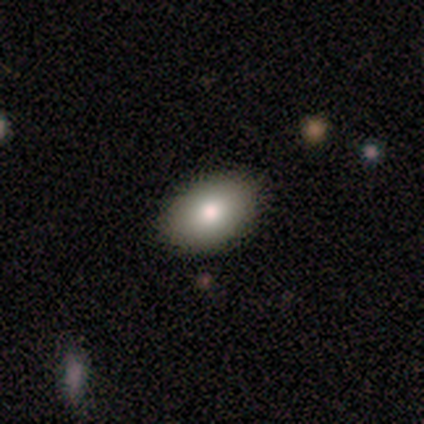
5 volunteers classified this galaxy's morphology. smooth_or_featured: smooth (p=0.80) [alt: star or artifact p=0.20]
how_rounded: in between (p=0.75) [alt: round p=0.25]
merging: none (p=1.00)